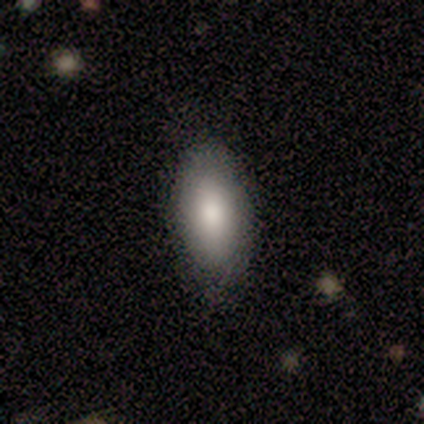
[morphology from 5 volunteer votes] This is clearly a smooth galaxy (80%). How rounded: clearly in between (100%). Merging: clearly none (80%).